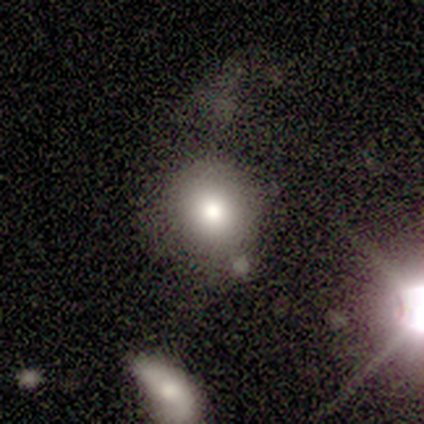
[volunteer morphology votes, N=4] smooth 75%, star or artifact 25%, featured or disk 0%. Down the decision tree: how rounded — round (100%); merging — none (67%).